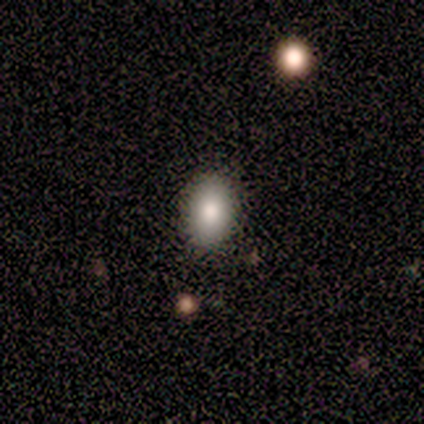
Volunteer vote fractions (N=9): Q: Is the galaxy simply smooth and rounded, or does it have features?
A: smooth — 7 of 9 (78%).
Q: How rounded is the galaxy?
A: in between — 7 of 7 (100%).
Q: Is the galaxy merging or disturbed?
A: none — 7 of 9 (78%).